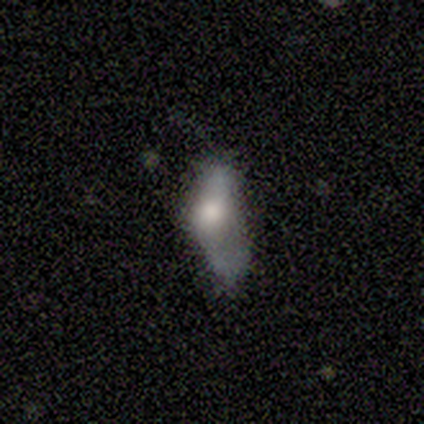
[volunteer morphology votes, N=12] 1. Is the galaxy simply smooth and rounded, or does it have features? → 58% smooth, 25% featured or disk, 17% star or artifact.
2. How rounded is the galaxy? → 86% in between, 14% cigar-shaped, 0% round.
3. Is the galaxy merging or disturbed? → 60% major disturbance, 20% none, 20% minor disturbance, 0% merger.